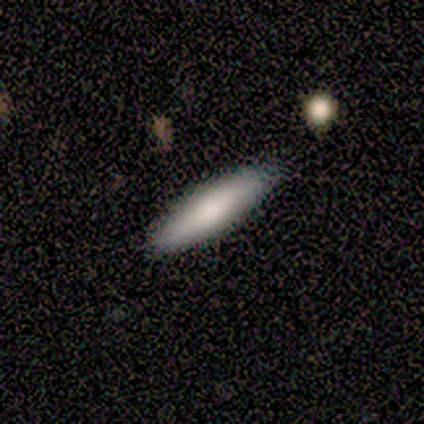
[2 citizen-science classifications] A smooth galaxy with no disk features (100%) that is in between round and cigar-shaped (50%, tied with cigar-shaped).

Vote fractions:
- Smooth or featured? smooth: 100% / featured or disk: 0% / star or artifact: 0%
- How rounded? in between: 50% (tied) / cigar-shaped: 50% (tied) / round: 0%
- Merging? none: 100% / minor disturbance: 0% / major disturbance: 0% / merger: 0%